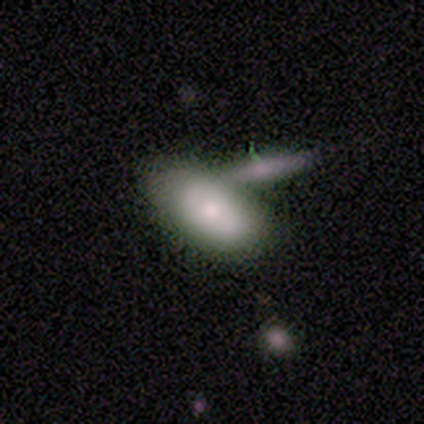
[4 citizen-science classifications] smooth 75%, featured or disk 25%, star or artifact 0%. Down the decision tree: how rounded — in between (100%); merging — none (100%).